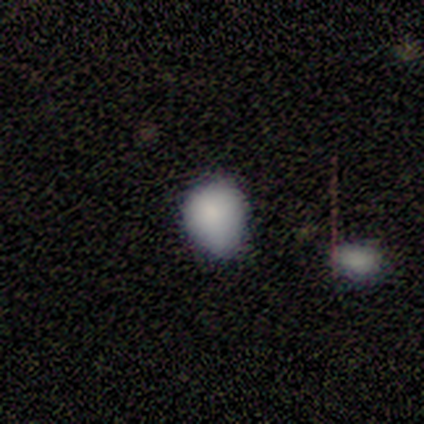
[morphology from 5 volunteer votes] Smooth or featured? smooth (80%)
How rounded? round (75%)
Merging? none (100%)